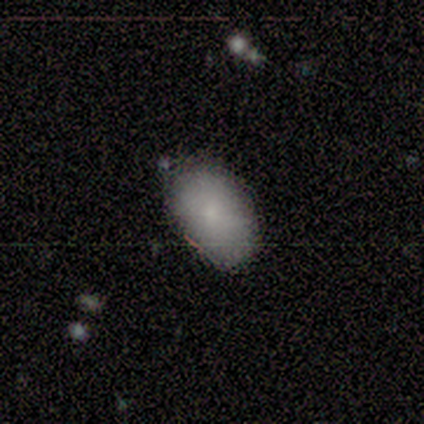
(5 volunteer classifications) A smooth galaxy with no disk features (100%) that is in between round and cigar-shaped (100%).

Vote fractions:
- Smooth or featured? smooth: 100% / featured or disk: 0% / star or artifact: 0%
- How rounded? in between: 100% / round: 0% / cigar-shaped: 0%
- Merging? none: 80% / major disturbance: 20% / minor disturbance: 0% / merger: 0%